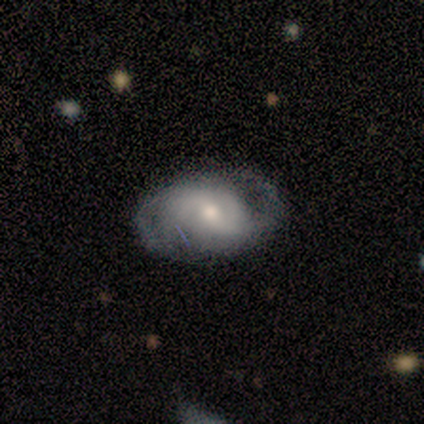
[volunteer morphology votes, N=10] Overall: featured or disk (60%; smooth 20%). Edge-on disk: no (100%). Bar: weak (67%; no 33%). Spiral arms: yes (100%). Spiral arm count: 2 (83%). Spiral winding: loose (50%; tight 33%). Bulge size: moderate (67%). Merging: none (75%).